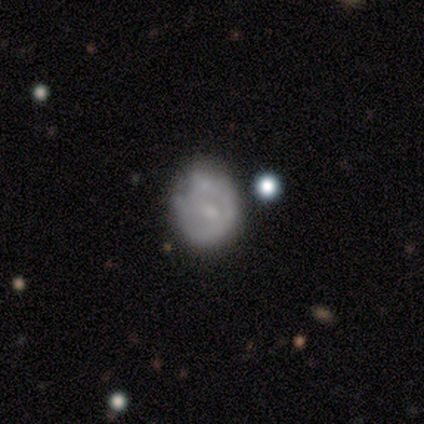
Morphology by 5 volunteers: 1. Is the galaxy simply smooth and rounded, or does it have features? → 100% featured or disk, 0% smooth, 0% star or artifact.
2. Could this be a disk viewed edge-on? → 80% no, 20% yes.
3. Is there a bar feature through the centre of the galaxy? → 100% no, 0% strong, 0% weak.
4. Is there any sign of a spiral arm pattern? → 75% no, 25% yes.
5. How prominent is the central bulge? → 50% small (tied), 50% none (tied), 0% dominant, 0% large, 0% moderate.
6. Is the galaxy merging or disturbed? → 80% minor disturbance, 20% none, 0% major disturbance, 0% merger.